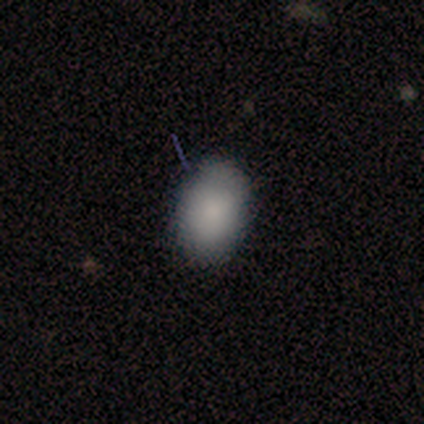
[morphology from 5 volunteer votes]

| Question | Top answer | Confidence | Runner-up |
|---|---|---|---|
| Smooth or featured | smooth | 60% | featured or disk (20%) |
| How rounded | in between | 100% | — |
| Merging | minor disturbance | 75% | none (25%) |